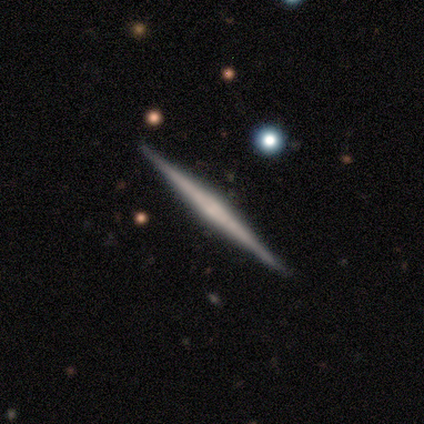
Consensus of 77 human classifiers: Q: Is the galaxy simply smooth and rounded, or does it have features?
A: featured or disk — 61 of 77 (79%).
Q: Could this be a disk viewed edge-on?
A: yes — 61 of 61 (100%).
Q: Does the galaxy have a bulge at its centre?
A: none — 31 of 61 (51%).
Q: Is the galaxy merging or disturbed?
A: none — 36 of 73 (49%).